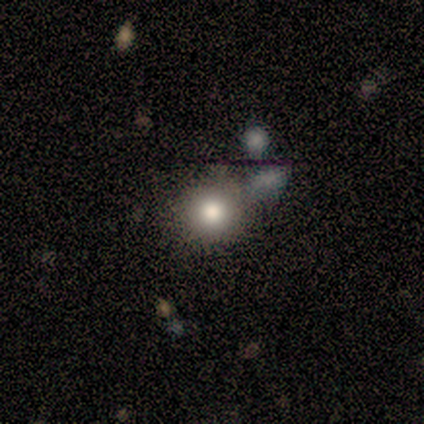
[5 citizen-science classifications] smooth 80%, featured or disk 20%, star or artifact 0%. Down the decision tree: how rounded — round (100%); merging — none (100%).